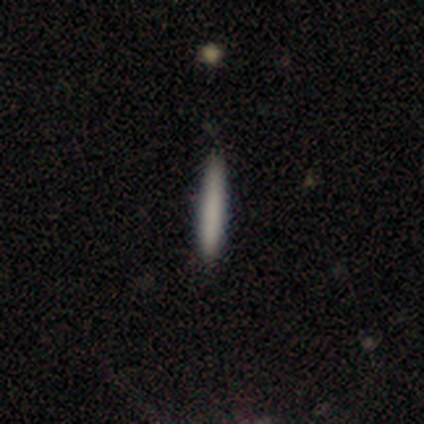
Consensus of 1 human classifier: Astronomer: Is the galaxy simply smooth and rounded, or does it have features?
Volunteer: star or artifact — 100%.